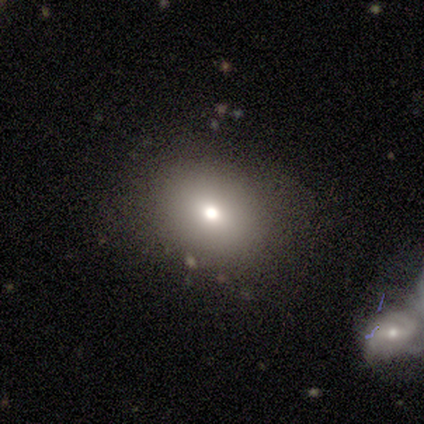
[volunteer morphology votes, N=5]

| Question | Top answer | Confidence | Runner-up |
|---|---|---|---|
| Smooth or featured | smooth | 80% | star or artifact (20%) |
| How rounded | round | 100% | — |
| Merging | none | 75% | minor disturbance (25%) |